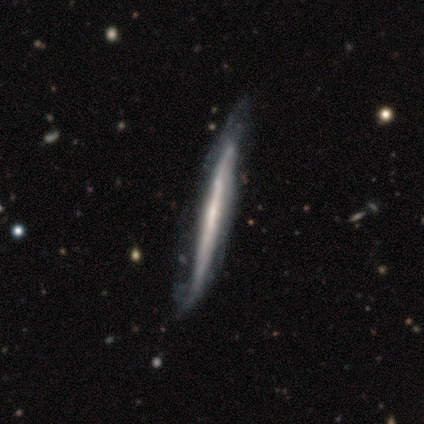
This appears to be a featured or disk galaxy (80%) viewed edge-on (50%, tied with no) with no central bulge (100%). Merging: none (60%).